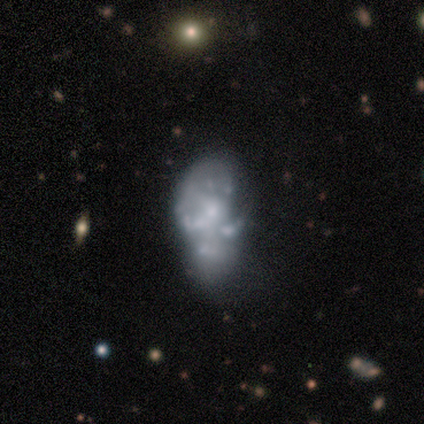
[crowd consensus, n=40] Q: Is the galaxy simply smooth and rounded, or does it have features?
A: featured or disk — 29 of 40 (72%).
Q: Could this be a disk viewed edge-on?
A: no — 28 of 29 (97%).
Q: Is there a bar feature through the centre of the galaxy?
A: no — 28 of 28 (100%).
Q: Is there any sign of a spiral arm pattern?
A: no — 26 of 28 (93%).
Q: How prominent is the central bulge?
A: small — 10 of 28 (36%).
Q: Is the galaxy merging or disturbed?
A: minor disturbance — 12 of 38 (32%).